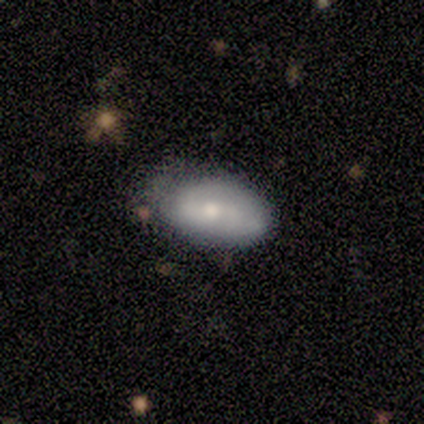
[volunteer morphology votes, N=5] A smooth galaxy with no disk features (60%) that is in between round and cigar-shaped (100%). Merging: minor disturbance (60%).